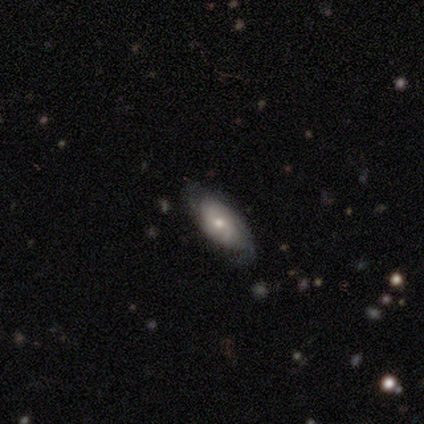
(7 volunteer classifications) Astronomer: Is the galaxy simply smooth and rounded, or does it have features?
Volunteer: featured or disk — 71%.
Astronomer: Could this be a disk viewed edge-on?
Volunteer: no — 60% (runner-up: yes, 40%).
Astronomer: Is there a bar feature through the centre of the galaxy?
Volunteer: weak — 67%.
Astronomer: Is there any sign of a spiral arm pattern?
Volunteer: yes — 67%.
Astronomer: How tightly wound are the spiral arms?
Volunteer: tight — 100%.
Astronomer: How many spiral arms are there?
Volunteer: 1 — 50%, tied with 2 at 50%.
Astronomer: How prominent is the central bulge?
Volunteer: small — 100%.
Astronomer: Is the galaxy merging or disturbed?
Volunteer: none — 71%.